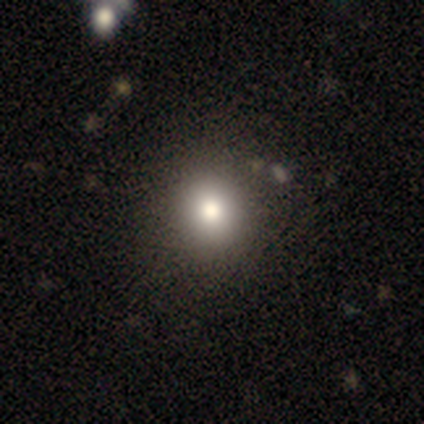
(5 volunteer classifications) smooth 60%, featured or disk 20%, star or artifact 20%. Down the decision tree: how rounded — round (100%); merging — none (100%).